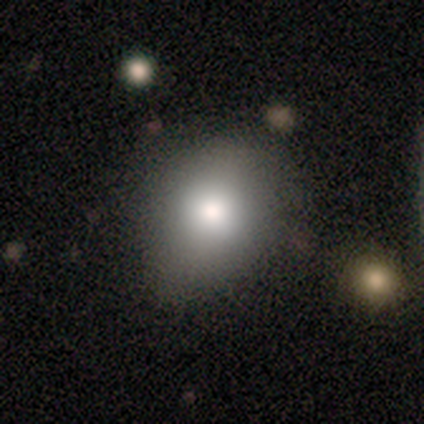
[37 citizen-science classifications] Volunteers were most divided on "how rounded": round: 68%, in between: 32%, cigar-shaped: 0%. More confident: merging — none (79%); smooth or featured — smooth (76%).